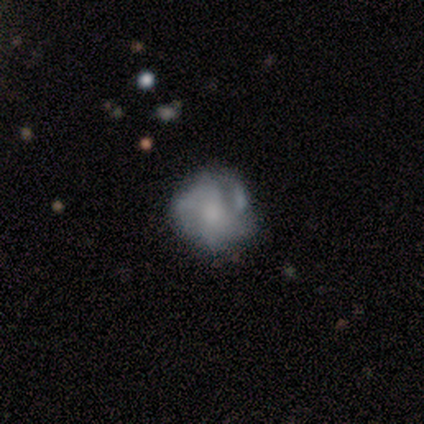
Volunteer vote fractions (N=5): featured or disk 80%, smooth 20%, star or artifact 0%. Down the decision tree: edge-on disk — no (100%); bar — no (100%); spiral arms — yes (75%); spiral arm count — can't tell (100%); spiral winding — tight (33%, tied with medium and loose); bulge size — none (50%); merging — none (100%).